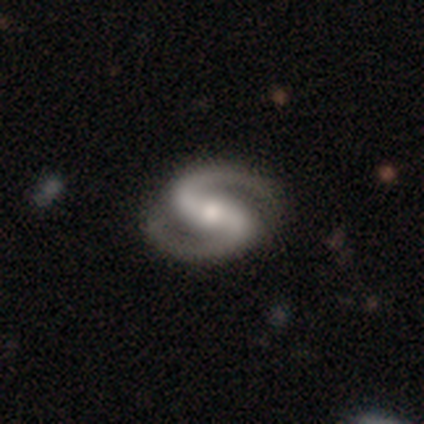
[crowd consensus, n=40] smooth_or_featured: featured or disk (p=0.88) [alt: smooth p=0.07]
disk_edge_on: no (p=1.00)
bar: strong (p=0.40) [alt: no p=0.31]
has_spiral_arms: yes (p=0.94) [alt: no p=0.06]
spiral_winding: medium (p=0.48) [alt: tight p=0.39]
spiral_arm_count: 2 (p=0.97) [alt: can't tell p=0.03]
bulge_size: moderate (p=0.49) [alt: small p=0.46]
merging: none (p=0.89) [alt: major disturbance p=0.08]